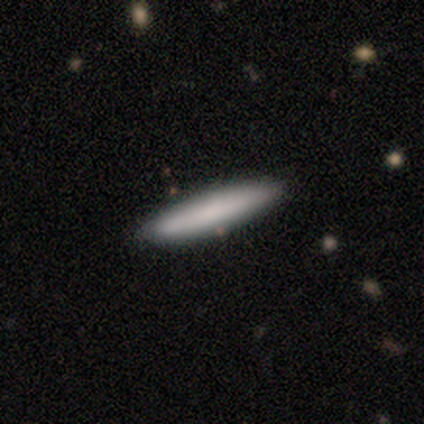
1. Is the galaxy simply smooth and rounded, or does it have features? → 80% smooth, 20% star or artifact, 0% featured or disk.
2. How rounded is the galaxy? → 100% cigar-shaped, 0% round, 0% in between.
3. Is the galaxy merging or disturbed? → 100% none, 0% minor disturbance, 0% major disturbance, 0% merger.